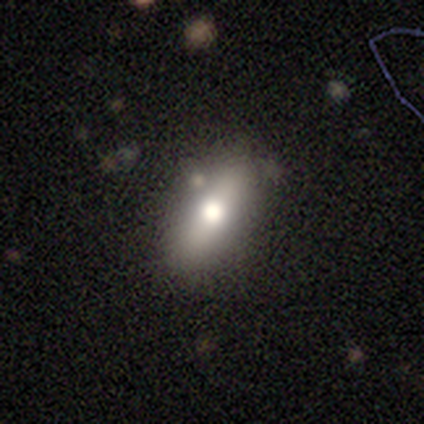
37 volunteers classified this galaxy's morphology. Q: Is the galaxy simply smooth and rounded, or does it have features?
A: smooth — 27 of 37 (73%).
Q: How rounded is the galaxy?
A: in between — 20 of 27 (74%).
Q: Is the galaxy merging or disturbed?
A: none — 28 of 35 (80%).